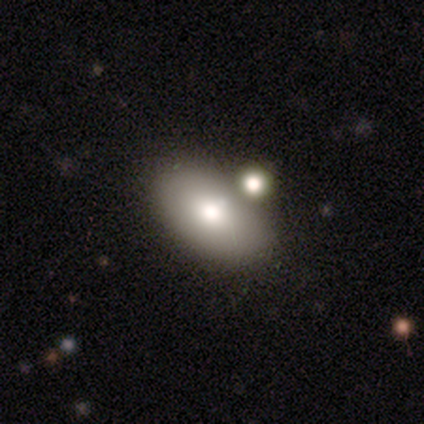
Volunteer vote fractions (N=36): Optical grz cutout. It shows a smooth galaxy with no disk features (78%) that is in between round and cigar-shaped (93%). Merging: merger (68%).